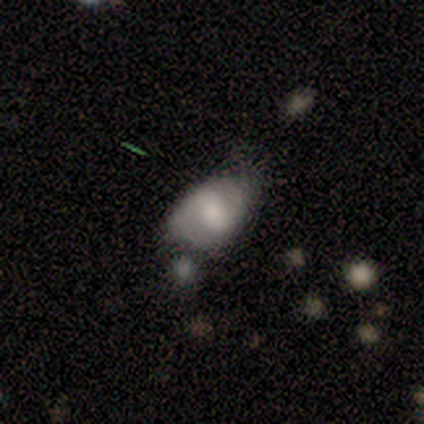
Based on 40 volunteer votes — Morphology: type=smooth (55%); roundness=in between (95%); merging=minor disturbance (36%).